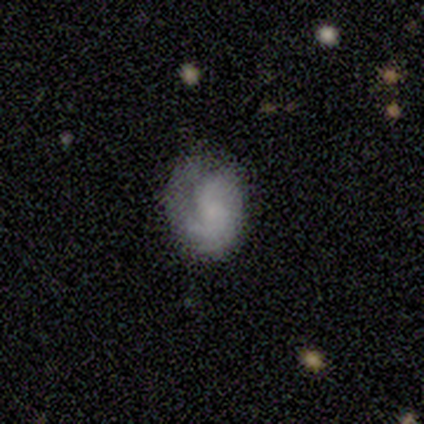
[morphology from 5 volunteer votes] Smooth or featured?
  - featured or disk: 60% *
  - smooth: 20%
  - star or artifact: 20%
Edge-on disk?
  - no: 100% *
  - yes: 0%
Bar?
  - no: 67% *
  - weak: 33%
  - strong: 0%
Spiral arms?
  - yes: 100% *
  - no: 0%
Spiral winding?
  - tight: 33% * (tied)
  - medium: 33% * (tied)
  - loose: 33% * (tied)
Spiral arm count?
  - 2: 67% *
  - 3: 33%
  - 1: 0%
  - 4: 0%
  - more than 4: 0%
  - can't tell: 0%
Bulge size?
  - large: 33% * (tied)
  - small: 33% * (tied)
  - none: 33% * (tied)
  - dominant: 0%
  - moderate: 0%
Merging?
  - none: 75% *
  - major disturbance: 25%
  - minor disturbance: 0%
  - merger: 0%